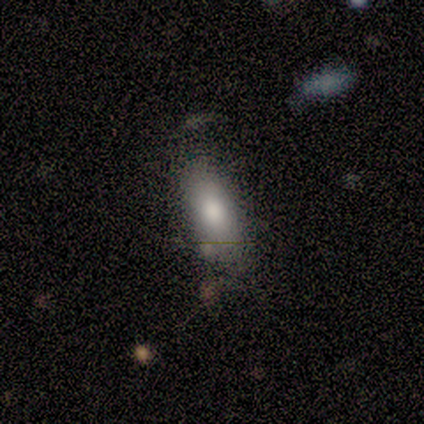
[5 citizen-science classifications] Overall: smooth (60%; featured or disk 40%). How rounded: cigar-shaped (67%; in between 33%). Merging: none (80%).